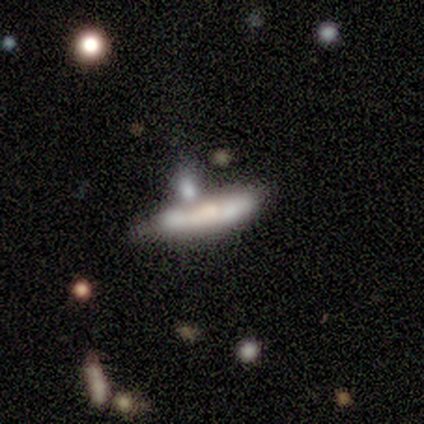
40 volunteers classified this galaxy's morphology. Volunteers were most divided on "smooth or featured": smooth: 50%, featured or disk: 48%, star or artifact: 2%. Remaining: how rounded — cigar-shaped (55%); merging — none (41%).